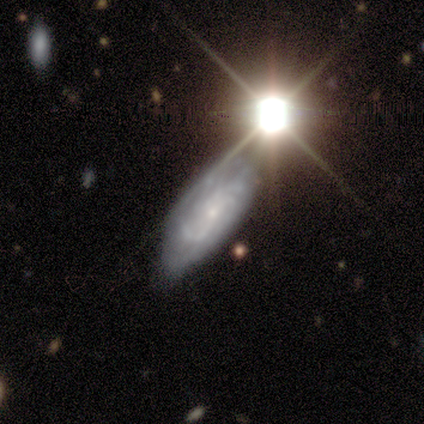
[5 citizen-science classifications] smooth-or-featured: smooth: 60% | featured or disk: 40% | star or artifact: 0%
  how-rounded: in between: 100% | round: 0% | cigar-shaped: 0%
  merging: none: 100% | minor disturbance: 0% | major disturbance: 0% | merger: 0%